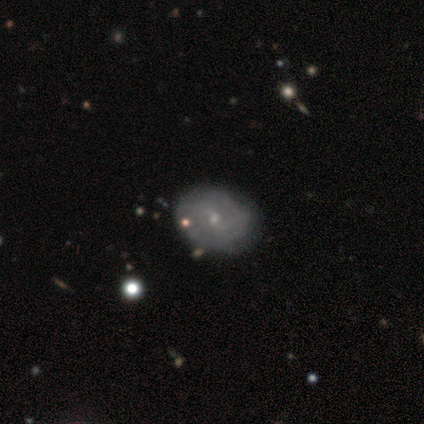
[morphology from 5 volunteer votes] smooth 40% (tied), featured or disk 40% (tied), star or artifact 20%. Down the decision tree: how rounded — round (50%, tied with in between); merging — none (100%).